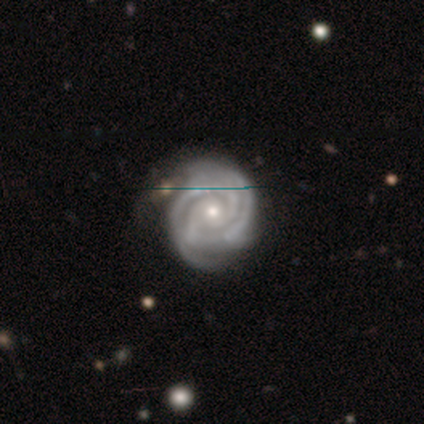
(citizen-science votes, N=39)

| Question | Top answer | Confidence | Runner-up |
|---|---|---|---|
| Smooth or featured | featured or disk | 92% | star or artifact (8%) |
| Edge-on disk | no | 97% | yes (3%) |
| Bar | no | 83% | weak (11%) |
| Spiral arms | yes | 100% | — |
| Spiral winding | tight | 74% | medium (20%) |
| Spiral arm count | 2 | 63% | 3 (17%) |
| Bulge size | moderate | 51% | small (46%) |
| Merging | none | 50% | minor disturbance (11%) |